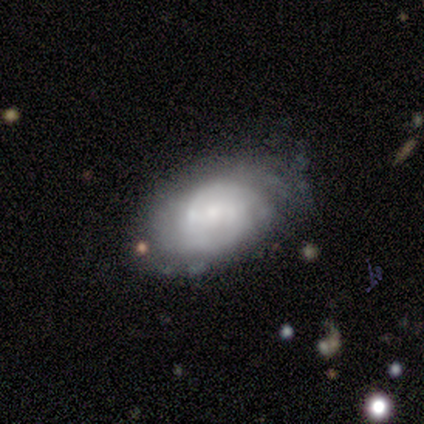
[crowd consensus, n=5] smooth-or-featured: smooth: 40% (tied) | featured or disk: 40% (tied) | star or artifact: 20%
  how-rounded: round: 50% (tied) | in between: 50% (tied) | cigar-shaped: 0%
  merging: none: 100% | minor disturbance: 0% | major disturbance: 0% | merger: 0%